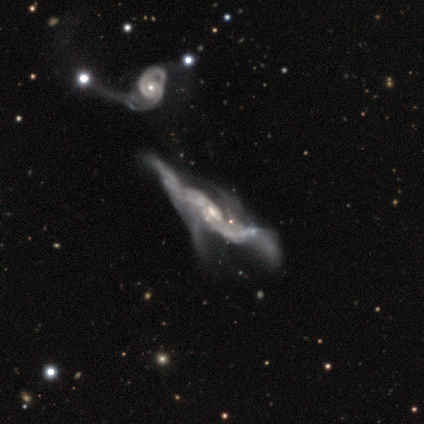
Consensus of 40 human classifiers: smooth_or_featured: featured or disk (p=0.78) [alt: smooth p=0.12]
disk_edge_on: no (p=0.84) [alt: yes p=0.16]
bar: no (p=0.58) [alt: weak p=0.27]
has_spiral_arms: yes (p=0.65) [alt: no p=0.35]
spiral_winding: loose (p=0.71) [alt: medium p=0.18]
spiral_arm_count: can't tell (p=0.35) [alt: 2 p=0.29]
bulge_size: small (p=0.46) [alt: moderate p=0.38]
merging: major disturbance (p=0.50) [alt: merger p=0.39]